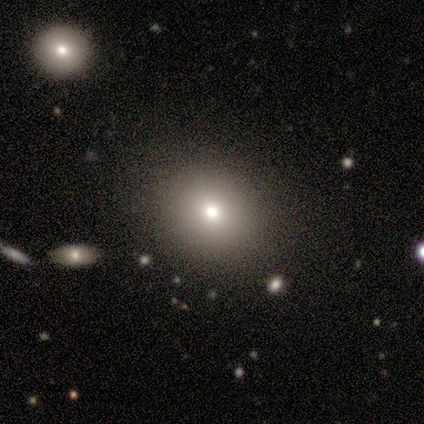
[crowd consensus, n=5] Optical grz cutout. It shows a smooth galaxy with no disk features (80%) that is round (50%, tied with in between). Merging: none (80%).